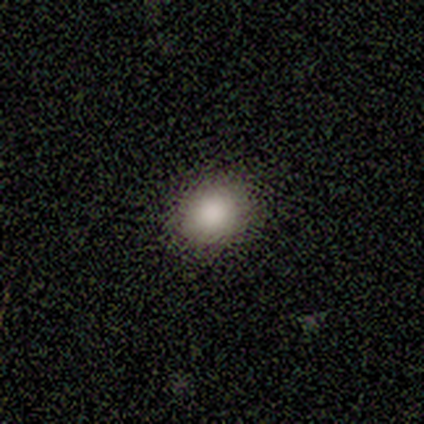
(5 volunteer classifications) This appears to be a smooth galaxy with no disk features (80%) that is round (50%, tied with in between). Merging: none (100%).